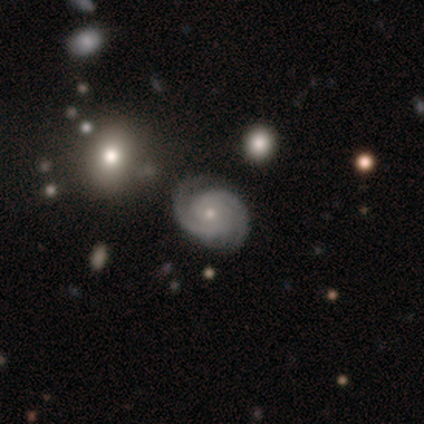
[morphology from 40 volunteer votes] Volunteers were most divided on "spiral winding": tight: 76%, medium: 19%, loose: 5%. More confident: edge-on disk — no (100%); spiral arms — yes (100%); smooth or featured — featured or disk (92%); bar — no (81%); merging — none (79%); bulge size — small (78%); spiral arm count — 2 (76%).